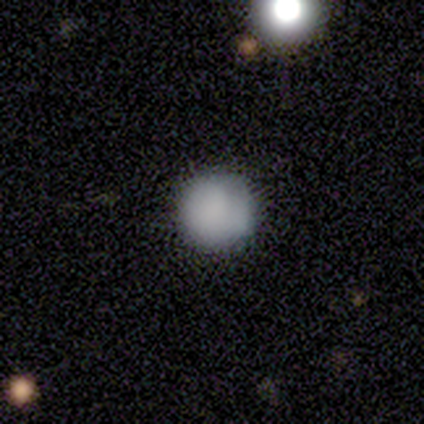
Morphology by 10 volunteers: smooth_or_featured: featured or disk (p=0.70) [alt: smooth p=0.20]
disk_edge_on: no (p=1.00)
bar: no (p=0.57) [alt: weak p=0.29]
has_spiral_arms: no (p=0.71) [alt: yes p=0.29]
bulge_size: large (p=0.29) [tied with: small p=0.29, none p=0.29]
merging: none (p=0.67) [alt: minor disturbance p=0.33]